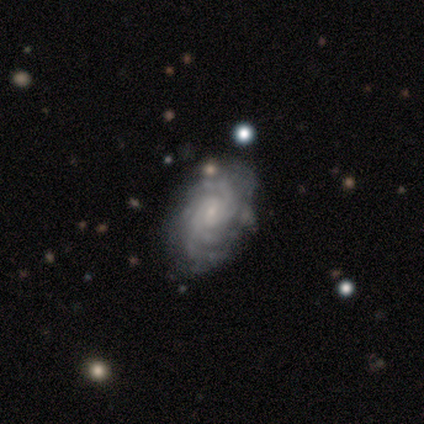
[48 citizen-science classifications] featured or disk 88%, smooth 6%, star or artifact 6%. Down the decision tree: edge-on disk — no (100%); bar — no (52%); spiral arms — yes (98%); spiral arm count — can't tell (29%); spiral winding — tight (80%); bulge size — small (69%); merging — none (87%).